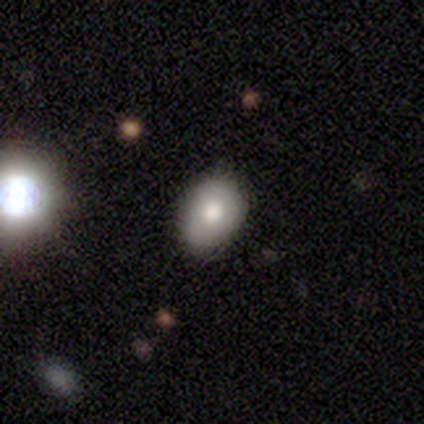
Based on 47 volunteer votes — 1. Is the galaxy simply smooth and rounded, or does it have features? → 77% smooth, 15% featured or disk, 9% star or artifact.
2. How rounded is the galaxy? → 64% in between, 36% round, 0% cigar-shaped.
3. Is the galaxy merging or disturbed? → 79% none, 14% minor disturbance, 5% major disturbance, 2% merger.